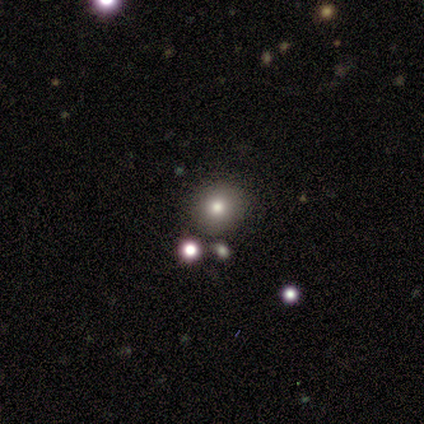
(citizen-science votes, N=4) This appears to be a smooth galaxy with no disk features (75%) that is round (100%). Merging: none (100%).